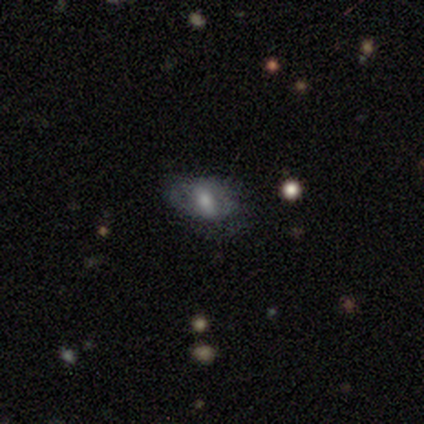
Volunteers were most divided on "merging": none: 62%, minor disturbance: 25%, major disturbance: 12%, merger: 0%. More confident: how rounded — in between (100%); smooth or featured — smooth (75%).